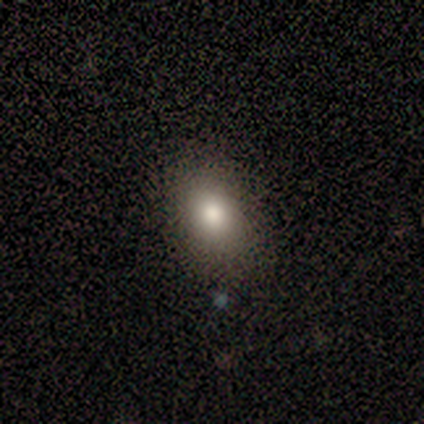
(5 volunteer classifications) This appears to be a smooth galaxy with no disk features (100%) that is in between round and cigar-shaped (80%). Merging: none (100%).